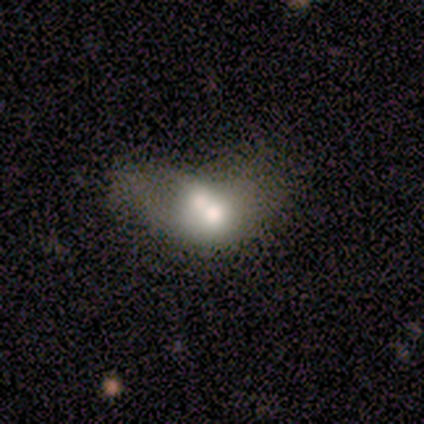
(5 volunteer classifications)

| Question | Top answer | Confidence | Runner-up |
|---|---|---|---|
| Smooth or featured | smooth | 60% | featured or disk (20%) |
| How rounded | in between | 67% | round (33%) |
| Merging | merger | 75% | minor disturbance (25%) |